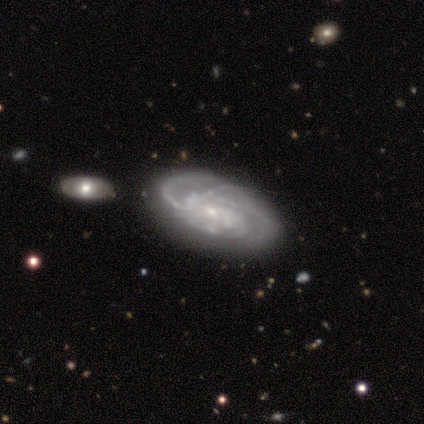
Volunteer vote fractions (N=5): Volunteers were most divided on "spiral arm count": more than 4: 50%, 2: 25%, can't tell: 25%, 1: 0%, 3: 0%, 4: 0%. More confident: edge-on disk — no (100%); spiral arms — yes (100%); bulge size — small (100%); smooth or featured — featured or disk (80%); merging — none (80%); bar — no (75%); spiral winding — tight (75%).